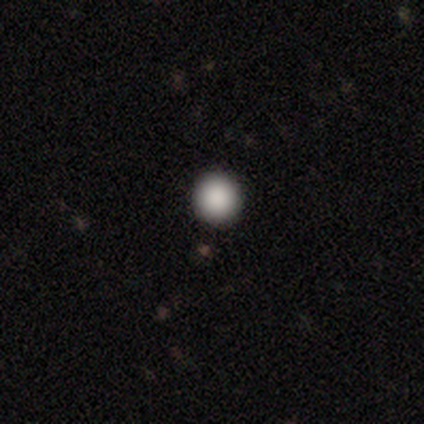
Smooth or featured? 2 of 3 (67%) said smooth. How rounded? 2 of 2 (100%) said round. Merging? 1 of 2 (50%, tied with minor disturbance) said none.